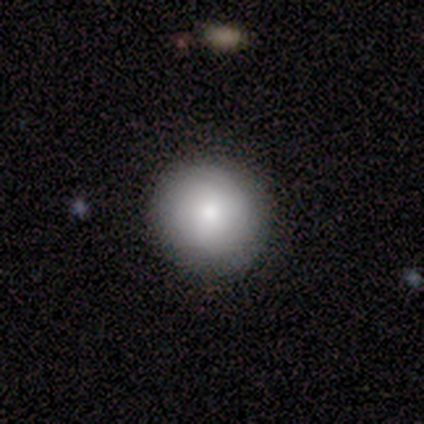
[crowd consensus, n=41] This is clearly a smooth galaxy (85%). How rounded: clearly round (100%). Merging: clearly none (92%).